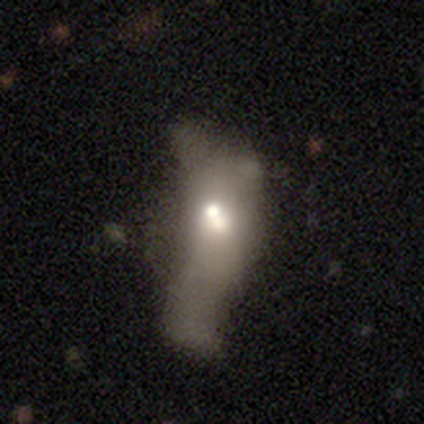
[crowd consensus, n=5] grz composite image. It shows a smooth galaxy with no disk features (40%, tied with featured or disk) that is in between round and cigar-shaped (100%). Merging: merger (50%).